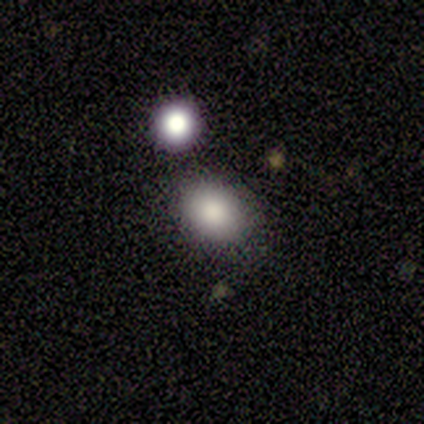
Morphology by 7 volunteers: Overall: smooth (71%). How rounded: in between (100%). Merging: none (100%).